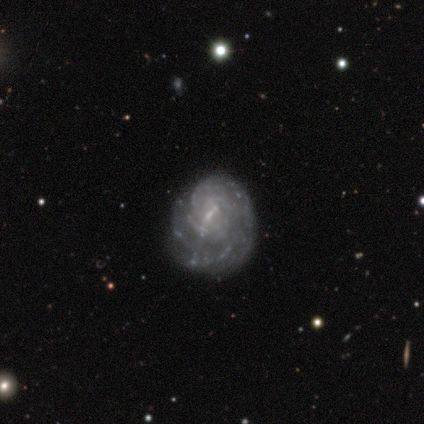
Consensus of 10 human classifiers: Smooth or featured? featured or disk (80%)
Edge-on disk? no (100%)
Bar? weak (75%)
Spiral arms? yes (62%)
Spiral winding? tight (80%)
Spiral arm count? 1 (20%, tied with 3, 4, more than 4 and can't tell)
Bulge size? small (75%)
Merging? none (78%)